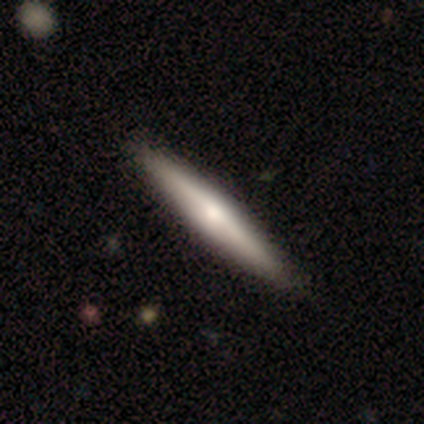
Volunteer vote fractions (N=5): smooth 40% (tied), featured or disk 40% (tied), star or artifact 20%. Down the decision tree: how rounded — cigar-shaped (100%); merging — none (100%).